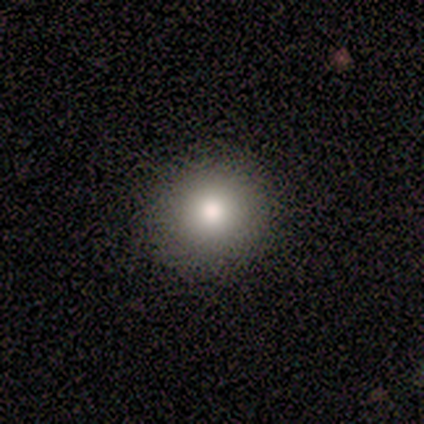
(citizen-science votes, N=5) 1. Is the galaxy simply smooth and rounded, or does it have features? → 40% smooth (tied), 40% star or artifact (tied), 20% featured or disk.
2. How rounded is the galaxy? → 100% round, 0% in between, 0% cigar-shaped.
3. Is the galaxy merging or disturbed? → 100% none, 0% minor disturbance, 0% major disturbance, 0% merger.